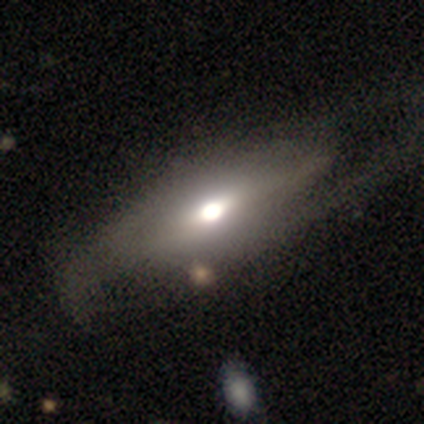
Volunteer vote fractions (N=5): smooth-or-featured: featured or disk: 80% | smooth: 20% | star or artifact: 0%
  disk-edge-on: yes: 50% (tied) | no: 50% (tied)
    edge-on-bulge: rounded: 100% | boxy: 0% | none: 0%
  merging: minor disturbance: 60% | none: 20% | major disturbance: 20% | merger: 0%